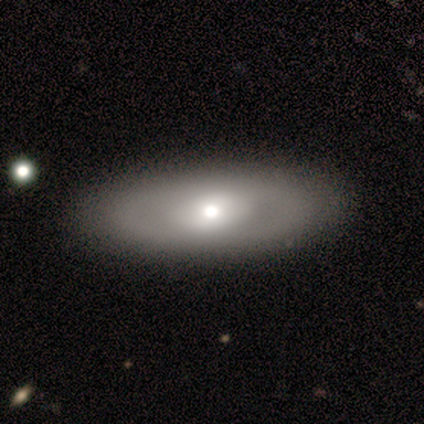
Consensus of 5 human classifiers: A featured or disk galaxy (60%) with a strong bar (67%), no spiral arms (67%) and a moderate central bulge (67%).

Vote fractions:
- Smooth or featured? featured or disk: 60% / smooth: 40% / star or artifact: 0%
- Edge-on disk? no: 100% / yes: 0%
- Bar? strong: 67% / no: 33% / weak: 0%
- Spiral arms? no: 67% / yes: 33%
- Bulge size? moderate: 67% / large: 33% / dominant: 0% / small: 0% / none: 0%
- Merging? none: 80% / major disturbance: 20% / minor disturbance: 0% / merger: 0%